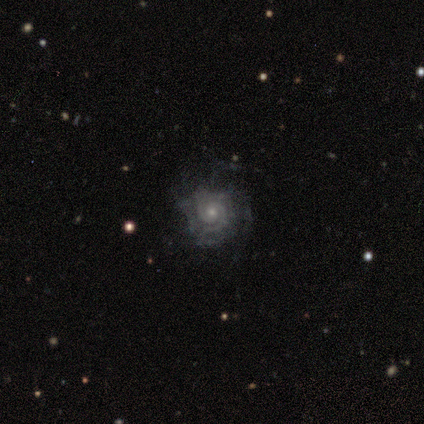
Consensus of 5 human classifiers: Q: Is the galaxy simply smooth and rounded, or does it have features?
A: featured or disk — 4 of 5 (80%).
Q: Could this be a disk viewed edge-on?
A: no — 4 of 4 (100%).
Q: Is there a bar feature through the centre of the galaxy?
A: no — 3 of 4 (75%).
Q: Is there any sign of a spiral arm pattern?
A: yes — 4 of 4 (100%).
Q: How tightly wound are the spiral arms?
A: tight — 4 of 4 (100%).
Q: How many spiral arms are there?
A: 2 — 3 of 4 (75%).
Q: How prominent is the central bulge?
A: small — 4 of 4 (100%).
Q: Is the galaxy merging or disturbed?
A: none — 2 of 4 (50%, tied with minor disturbance).